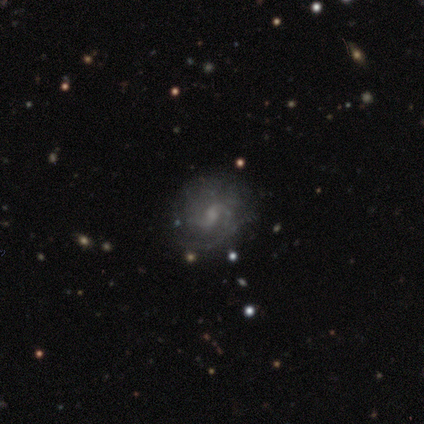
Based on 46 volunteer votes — smooth_or_featured: featured or disk (p=0.91) [alt: star or artifact p=0.07]
disk_edge_on: no (p=1.00)
bar: weak (p=0.57) [alt: no p=0.33]
has_spiral_arms: yes (p=0.95) [alt: no p=0.05]
spiral_winding: medium (p=0.45) [alt: tight p=0.28]
spiral_arm_count: 2 (p=0.72) [alt: can't tell p=0.20]
bulge_size: moderate (p=0.50) [alt: small p=0.26]
merging: none (p=0.79) [alt: minor disturbance p=0.14]